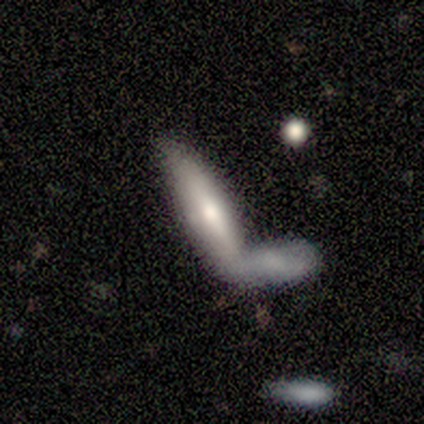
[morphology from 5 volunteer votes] Smooth or featured? 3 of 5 (60%) said smooth. How rounded? 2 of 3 (67%) said cigar-shaped. Merging? 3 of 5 (60%) said merger.